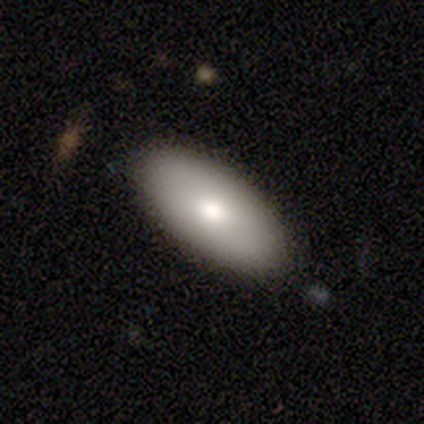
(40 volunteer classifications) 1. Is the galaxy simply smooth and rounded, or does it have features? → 70% smooth, 22% featured or disk, 8% star or artifact.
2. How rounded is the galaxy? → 86% in between, 14% cigar-shaped, 0% round.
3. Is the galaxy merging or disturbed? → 84% none, 14% minor disturbance, 3% merger, 0% major disturbance.